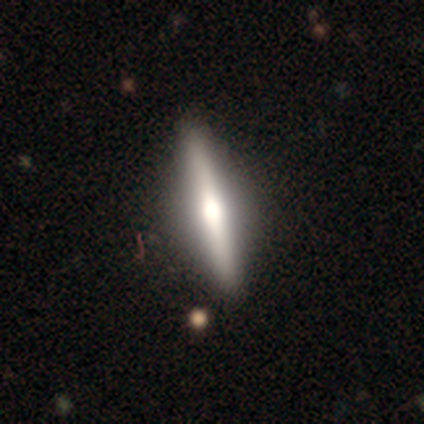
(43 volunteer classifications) Smooth or featured? featured or disk (72%)
Edge-on disk? yes (90%)
Edge-on bulge? rounded (79%)
Merging? none (92%)